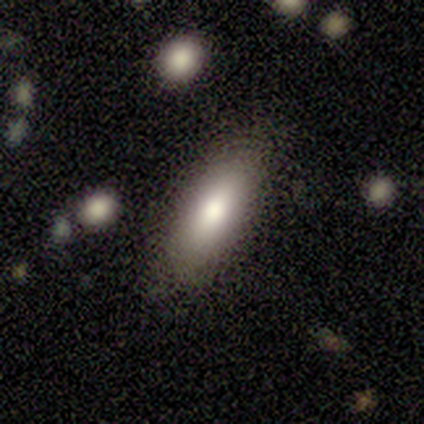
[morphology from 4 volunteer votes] Volunteers were most divided on "how rounded": in between: 75%, cigar-shaped: 25%, round: 0%. More confident: smooth or featured — smooth (100%); merging — none (100%).